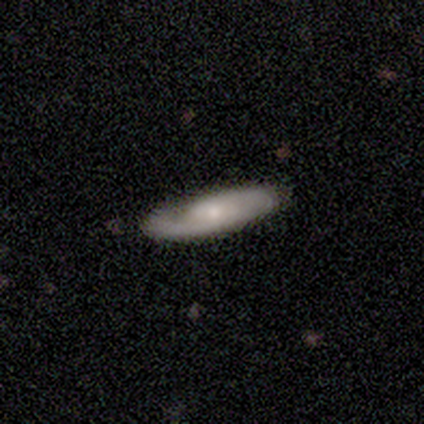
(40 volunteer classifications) Smooth or featured: featured or disk — 68% (smooth — 32%)
Edge-on disk: no — 81% (yes — 19%)
Bar: no — 59% (weak — 23%)
Spiral arms: yes — 95% (no — 5%)
Spiral winding: tight — 43% (medium — 38%)
Spiral arm count: 2 — 52% (1 — 24%)
Bulge size: moderate — 50% (tied with small — 50%)
Merging: none — 82% (minor disturbance — 15%)